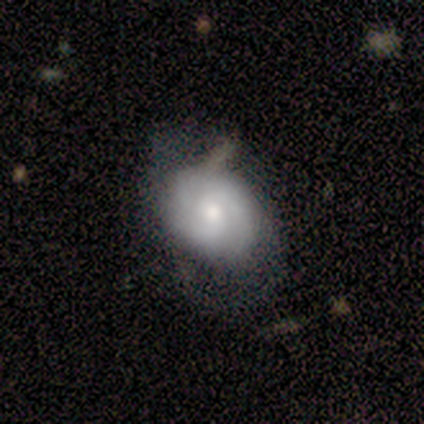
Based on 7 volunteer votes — Smooth or featured?
  - featured or disk: 86% *
  - smooth: 14%
  - star or artifact: 0%
Edge-on disk?
  - no: 100% *
  - yes: 0%
Bar?
  - no: 100% *
  - strong: 0%
  - weak: 0%
Spiral arms?
  - yes: 100% *
  - no: 0%
Spiral winding?
  - tight: 67% *
  - medium: 33%
  - loose: 0%
Spiral arm count?
  - 2: 33% * (tied)
  - 3: 33% * (tied)
  - 4: 17%
  - can't tell: 17%
  - 1: 0%
  - more than 4: 0%
Bulge size?
  - moderate: 67% *
  - dominant: 17%
  - small: 17%
  - large: 0%
  - none: 0%
Merging?
  - none: 57% *
  - minor disturbance: 43%
  - major disturbance: 0%
  - merger: 0%